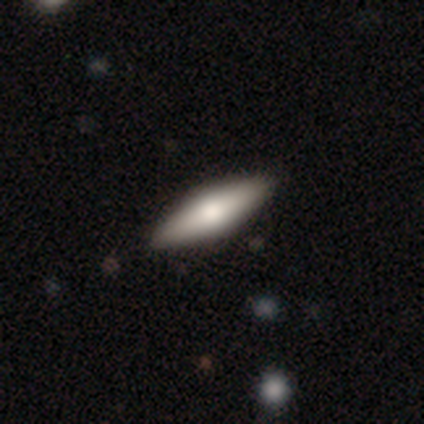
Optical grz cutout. It shows a smooth galaxy with no disk features (80%) that is in between round and cigar-shaped (75%). Merging: none (100%).